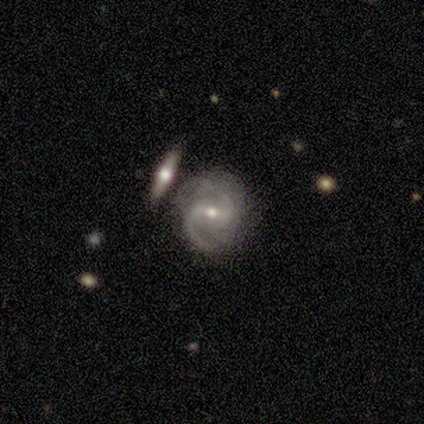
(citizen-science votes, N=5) Smooth or featured? 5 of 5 (100%) said featured or disk. Edge-on disk? 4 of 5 (80%) said no. Bar? 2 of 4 (50%, tied with weak) said strong. Spiral arms? 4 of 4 (100%) said yes. Spiral winding? 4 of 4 (100%) said medium. Spiral arm count? 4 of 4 (100%) said 2. Bulge size? 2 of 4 (50%) said small. Merging? 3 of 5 (60%) said none.